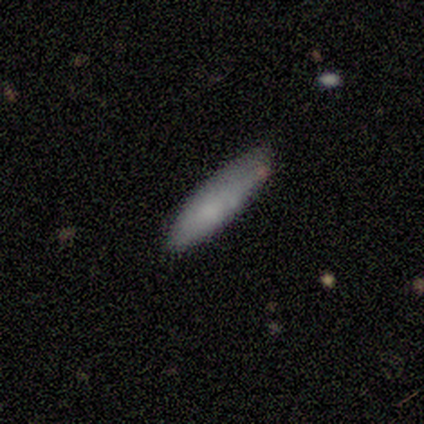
Smooth or featured?
  - smooth: 80% *
  - featured or disk: 20%
  - star or artifact: 0%
How rounded?
  - in between: 50% * (tied)
  - cigar-shaped: 50% * (tied)
  - round: 0%
Merging?
  - none: 80% *
  - minor disturbance: 20%
  - major disturbance: 0%
  - merger: 0%